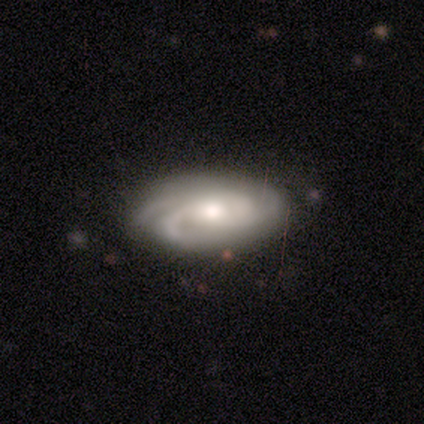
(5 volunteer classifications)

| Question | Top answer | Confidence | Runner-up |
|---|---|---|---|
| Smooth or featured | featured or disk | 80% | smooth (20%) |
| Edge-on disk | no | 100% | — |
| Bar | no | 100% | — |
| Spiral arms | yes | 100% | — |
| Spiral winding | tight | 100% | — |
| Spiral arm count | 2 | 50% | 3 (25%) |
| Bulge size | large | 50% | tied: moderate (50%) |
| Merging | none | 80% | major disturbance (20%) |